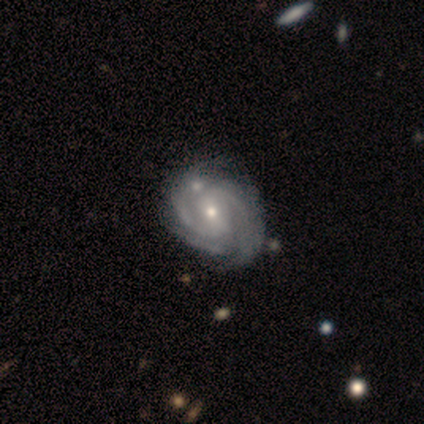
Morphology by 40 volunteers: smooth-or-featured: featured or disk: 98% | smooth: 2% | star or artifact: 0%
  disk-edge-on: no: 95% | yes: 5%
    bar: weak: 49% | strong: 35% | no: 16%
    has-spiral-arms: yes: 100% | no: 0%
      spiral-winding: tight: 62% | medium: 38% | loose: 0%
      spiral-arm-count: 2: 43% | 3: 30% | can't tell: 19% | 4: 8% | 1: 0% | more than 4: 0%
    bulge-size: small: 54% | moderate: 43% | large: 3% | dominant: 0% | none: 0%
  merging: none: 40% | minor disturbance: 15% | merger: 15% | major disturbance: 8%